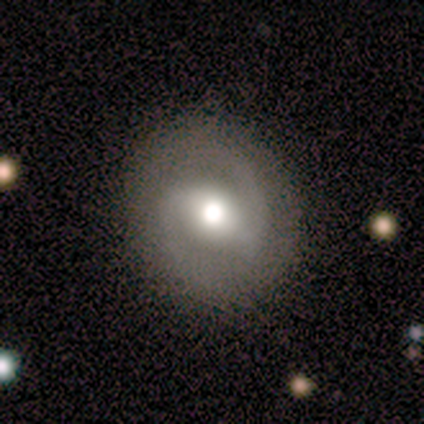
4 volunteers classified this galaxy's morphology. smooth-or-featured: featured or disk: 75% | smooth: 25% | star or artifact: 0%
  disk-edge-on: no: 100% | yes: 0%
    bar: strong: 33% (tied) | weak: 33% (tied) | no: 33% (tied)
    has-spiral-arms: yes: 100% | no: 0%
      spiral-winding: medium: 100% | tight: 0% | loose: 0%
      spiral-arm-count: 2: 100% | 1: 0% | 3: 0% | 4: 0% | more than 4: 0% | can't tell: 0%
    bulge-size: moderate: 100% | dominant: 0% | large: 0% | small: 0% | none: 0%
  merging: none: 100% | minor disturbance: 0% | major disturbance: 0% | merger: 0%